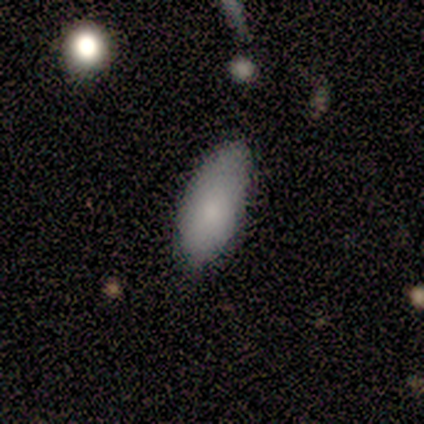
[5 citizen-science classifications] Q: Smooth or featured?
A: smooth (80%); runner-up: featured or disk (20%)
Q: How rounded?
A: in between (50%); tied with: cigar-shaped (50%)
Q: Merging?
A: none (80%); runner-up: minor disturbance (20%)